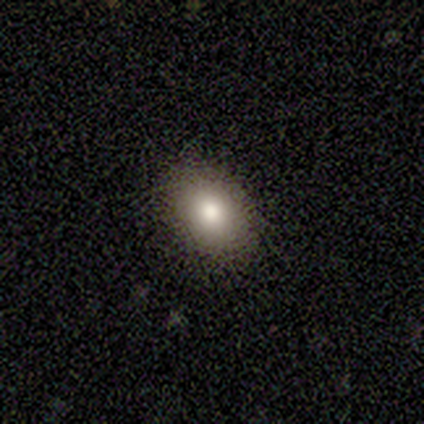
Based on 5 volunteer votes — Smooth or featured? 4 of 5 (80%) said smooth. How rounded? 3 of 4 (75%) said in between. Merging? 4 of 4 (100%) said none.